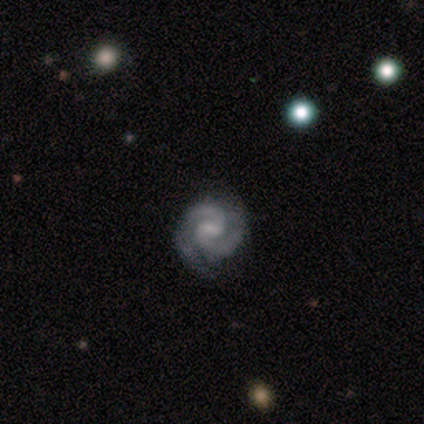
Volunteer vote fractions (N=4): Smooth or featured?
  - featured or disk: 100% *
  - smooth: 0%
  - star or artifact: 0%
Edge-on disk?
  - no: 100% *
  - yes: 0%
Bar?
  - weak: 75% *
  - no: 25%
  - strong: 0%
Spiral arms?
  - yes: 100% *
  - no: 0%
Spiral winding?
  - medium: 75% *
  - tight: 25%
  - loose: 0%
Spiral arm count?
  - 2: 100% *
  - 1: 0%
  - 3: 0%
  - 4: 0%
  - more than 4: 0%
  - can't tell: 0%
Bulge size?
  - moderate: 50% * (tied)
  - small: 50% * (tied)
  - dominant: 0%
  - large: 0%
  - none: 0%
Merging?
  - none: 75% *
  - major disturbance: 25%
  - minor disturbance: 0%
  - merger: 0%